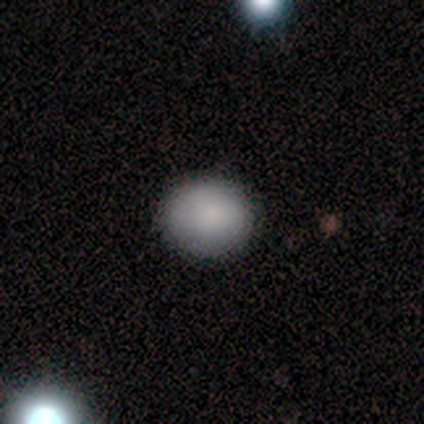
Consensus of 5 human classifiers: smooth_or_featured: smooth (p=0.80) [alt: featured or disk p=0.20]
how_rounded: round (p=0.75) [alt: in between p=0.25]
merging: none (p=1.00)